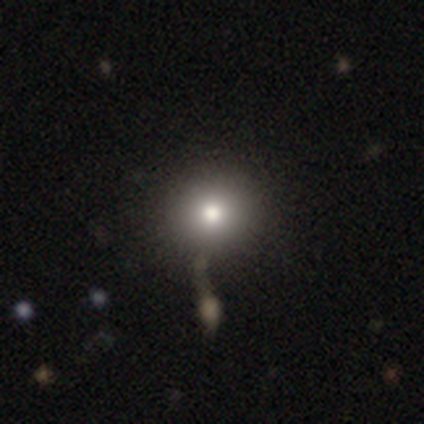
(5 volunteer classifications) This appears to be a smooth galaxy with no disk features (100%) that is round (100%). Merging: none (60%).